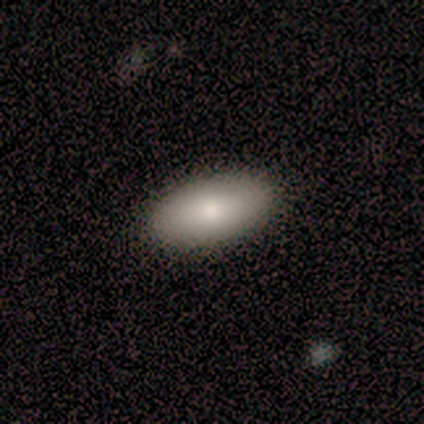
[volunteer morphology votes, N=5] Q: Smooth or featured?
A: smooth (80%); runner-up: featured or disk (20%)
Q: How rounded?
A: in between (100%)
Q: Merging?
A: none (100%)